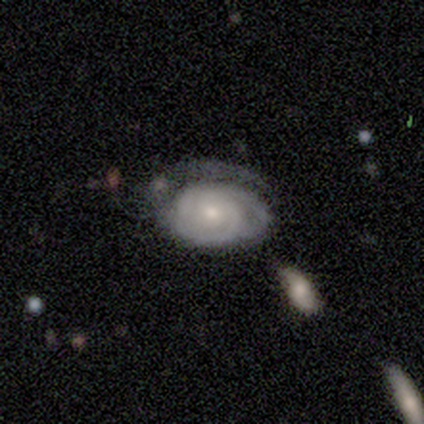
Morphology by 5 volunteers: Q: Smooth or featured?
A: featured or disk (100%)
Q: Edge-on disk?
A: no (100%)
Q: Bar?
A: no (80%); runner-up: weak (20%)
Q: Spiral arms?
A: yes (80%); runner-up: no (20%)
Q: Spiral winding?
A: tight (100%)
Q: Spiral arm count?
A: 2 (50%); tied with: 3 (50%)
Q: Bulge size?
A: small (60%); runner-up: moderate (40%)
Q: Merging?
A: none (40%); tied with: major disturbance (40%)